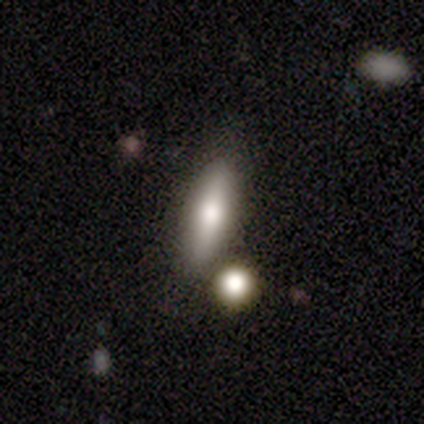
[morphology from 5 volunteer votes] This is clearly a smooth galaxy (80%). How rounded: likely cigar-shaped (75%). Merging: clearly none (100%).